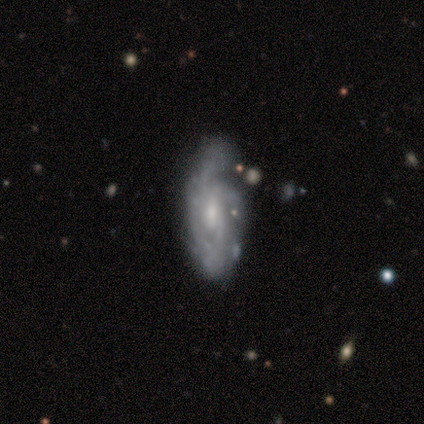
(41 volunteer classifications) This appears to be a featured or disk galaxy (90%) with no bar (71%), tight (47%) spiral arms (94%) and a small central bulge (50%). Merging: none (56%).